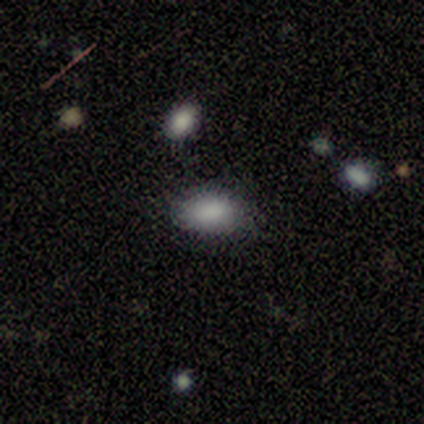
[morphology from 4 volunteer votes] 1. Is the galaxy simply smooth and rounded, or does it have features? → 100% smooth, 0% featured or disk, 0% star or artifact.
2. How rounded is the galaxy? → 75% in between, 25% round, 0% cigar-shaped.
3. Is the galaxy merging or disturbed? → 100% none, 0% minor disturbance, 0% major disturbance, 0% merger.